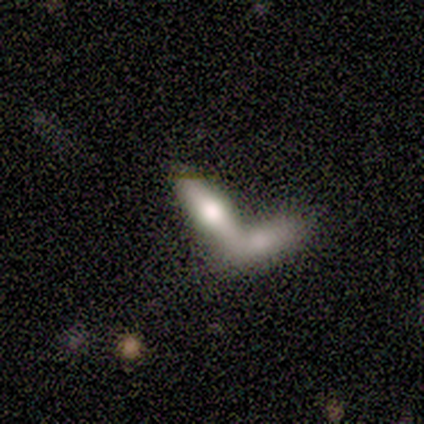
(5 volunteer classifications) smooth-or-featured: smooth: 60% | featured or disk: 40% | star or artifact: 0%
  how-rounded: in between: 67% | cigar-shaped: 33% | round: 0%
  merging: merger: 60% | none: 40% | minor disturbance: 0% | major disturbance: 0%